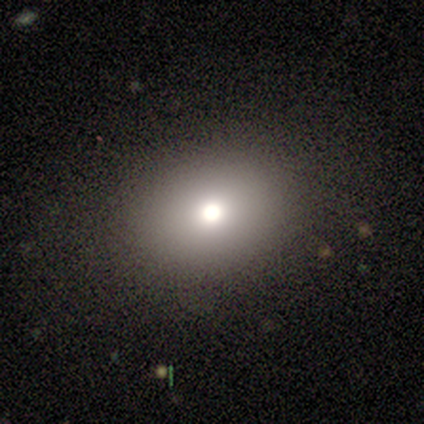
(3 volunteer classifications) A smooth galaxy with no disk features (100%) that is round (67%).

Vote fractions:
- Smooth or featured? smooth: 100% / featured or disk: 0% / star or artifact: 0%
- How rounded? round: 67% / in between: 33% / cigar-shaped: 0%
- Merging? none: 100% / minor disturbance: 0% / major disturbance: 0% / merger: 0%